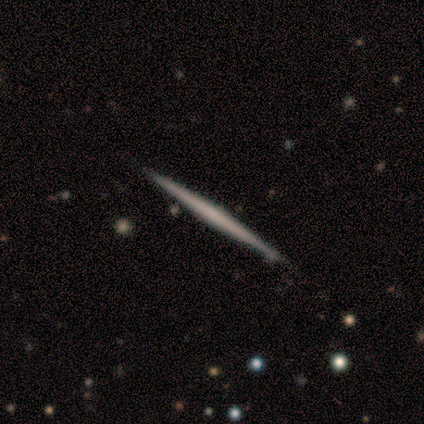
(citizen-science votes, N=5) Overall: smooth (60%; featured or disk 40%). How rounded: cigar-shaped (100%). Merging: none (100%).